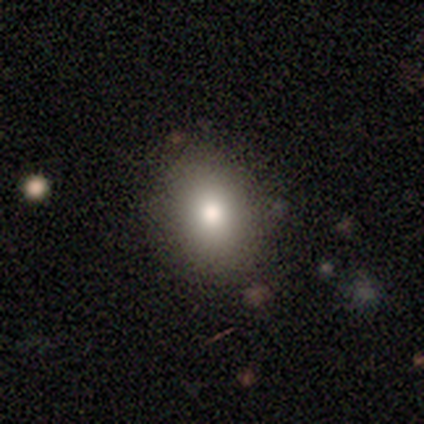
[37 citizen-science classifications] Volunteers were most divided on "how rounded": in between: 53%, round: 47%, cigar-shaped: 0%. More confident: smooth or featured — smooth (86%); merging — none (85%).